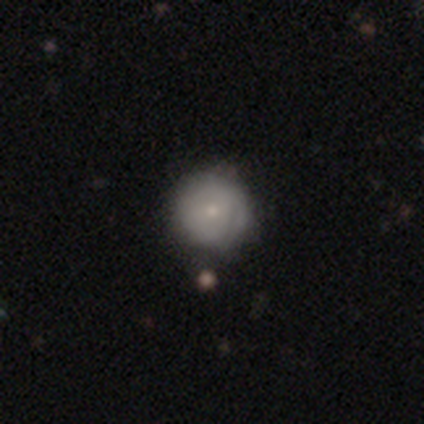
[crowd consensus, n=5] smooth_or_featured: smooth (p=0.60) [alt: featured or disk p=0.40]
how_rounded: round (p=1.00)
merging: none (p=0.80) [alt: minor disturbance p=0.20]